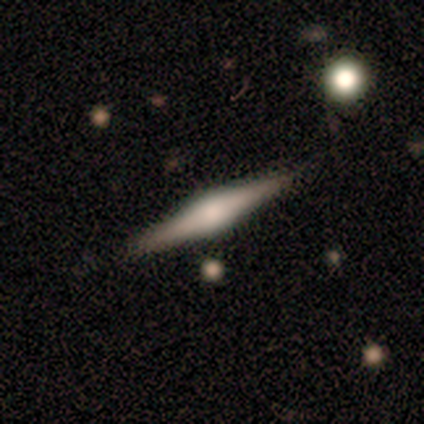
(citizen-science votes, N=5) Overall: featured or disk (80%). Edge-on disk: yes (100%). Edge-on bulge: boxy (50%, tied with rounded). Merging: none (100%).